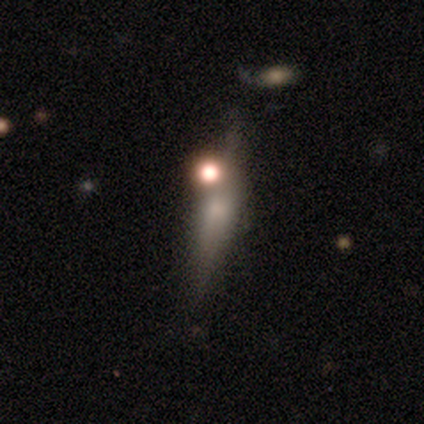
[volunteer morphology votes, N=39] Smooth or featured?
  - featured or disk: 49% *
  - smooth: 41%
  - star or artifact: 10%
Edge-on disk?
  - yes: 89% *
  - no: 11%
Edge-on bulge?
  - rounded: 76% *
  - boxy: 12%
  - none: 12%
Merging?
  - none: 60% *
  - minor disturbance: 26%
  - merger: 14%
  - major disturbance: 0%